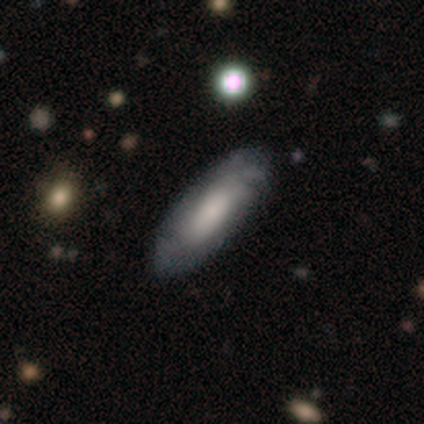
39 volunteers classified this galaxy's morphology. smooth-or-featured: featured or disk: 54% | smooth: 46% | star or artifact: 0%
  disk-edge-on: no: 81% | yes: 19%
    bar: no: 100% | strong: 0% | weak: 0%
    has-spiral-arms: yes: 65% | no: 35%
      spiral-winding: tight: 36% (tied) | loose: 36% (tied) | medium: 27%
      spiral-arm-count: can't tell: 73% | 2: 18% | 3: 9% | 1: 0% | 4: 0% | more than 4: 0%
    bulge-size: moderate: 35% | small: 29% | large: 18% | none: 18% | dominant: 0%
  merging: none: 62% | major disturbance: 5% | minor disturbance: 3% | merger: 0%